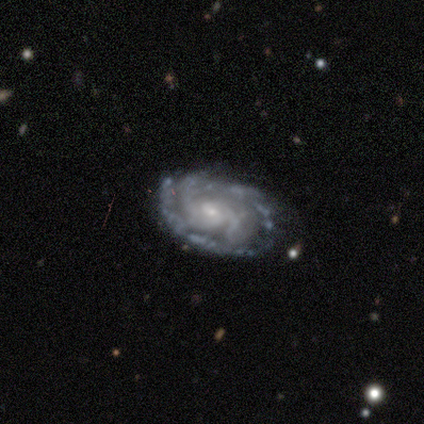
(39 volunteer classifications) Overall: featured or disk (97%). Edge-on disk: no (97%). Bar: no (68%). Spiral arms: yes (100%). Spiral arm count: 2 (38%; can't tell 30%). Spiral winding: tight (76%). Bulge size: small (86%). Merging: none (34%; minor disturbance 24%).